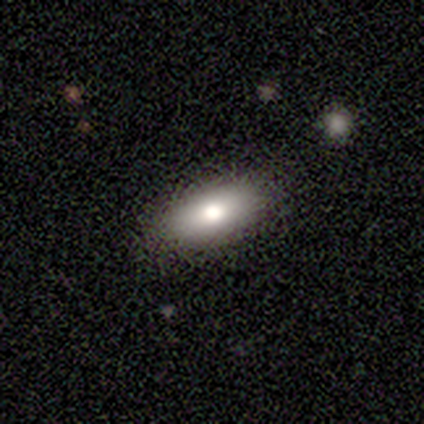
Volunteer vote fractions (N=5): smooth-or-featured: smooth: 100% | featured or disk: 0% | star or artifact: 0%
  how-rounded: in between: 60% | cigar-shaped: 40% | round: 0%
  merging: none: 80% | major disturbance: 20% | minor disturbance: 0% | merger: 0%